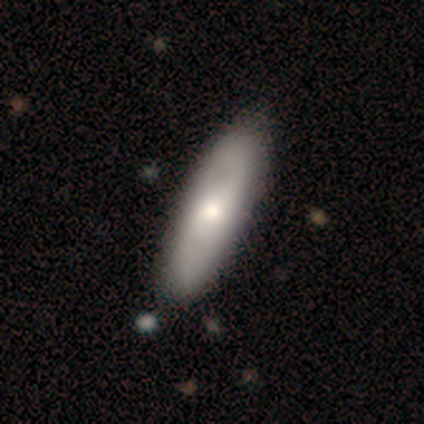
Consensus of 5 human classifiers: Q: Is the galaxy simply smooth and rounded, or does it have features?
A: smooth — 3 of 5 (60%).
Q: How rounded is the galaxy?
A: in between — 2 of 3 (67%).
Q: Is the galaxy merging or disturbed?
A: none — 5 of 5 (100%).